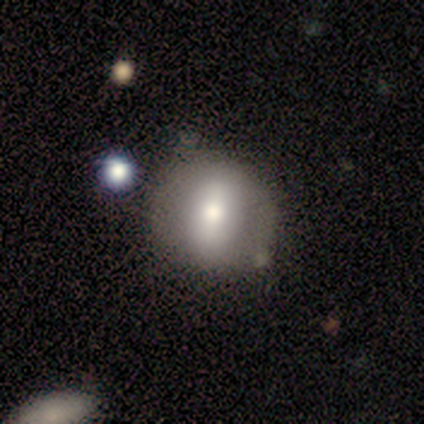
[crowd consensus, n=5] smooth_or_featured: smooth (p=0.80) [alt: featured or disk p=0.20]
how_rounded: round (p=1.00)
merging: none (p=0.80) [alt: minor disturbance p=0.20]